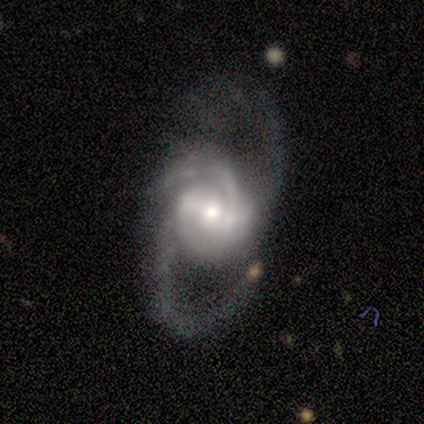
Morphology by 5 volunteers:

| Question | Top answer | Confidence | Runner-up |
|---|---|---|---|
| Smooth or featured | featured or disk | 100% | — |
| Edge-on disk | no | 100% | — |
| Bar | strong | 40% | tied: weak (40%) |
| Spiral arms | yes | 100% | — |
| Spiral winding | medium | 60% | tight (20%) |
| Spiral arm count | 3 | 80% | 2 (20%) |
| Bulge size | moderate | 60% | small (40%) |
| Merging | none | 60% | minor disturbance (40%) |